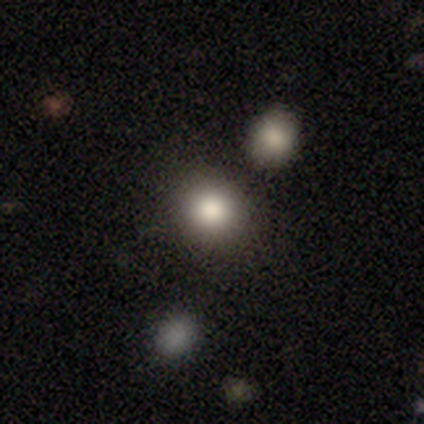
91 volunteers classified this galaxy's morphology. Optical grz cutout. It shows a smooth galaxy with no disk features (75%) that is round (81%). Merging: none (80%).